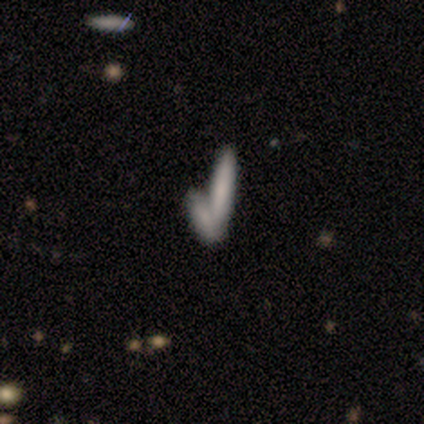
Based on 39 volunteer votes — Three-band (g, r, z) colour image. It shows a smooth galaxy with no disk features (74%) that is cigar-shaped (90%). Merging: merger (64%).